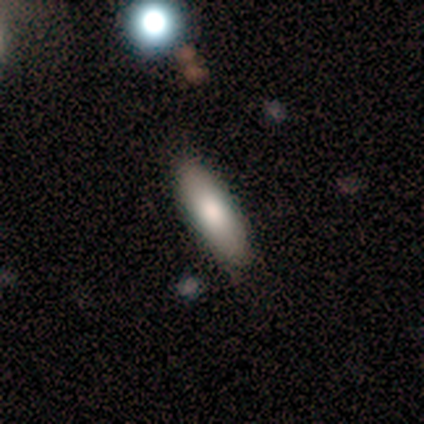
A smooth galaxy with no disk features (100%) that is in between round and cigar-shaped (50%, tied with cigar-shaped). Merging: none (100%).